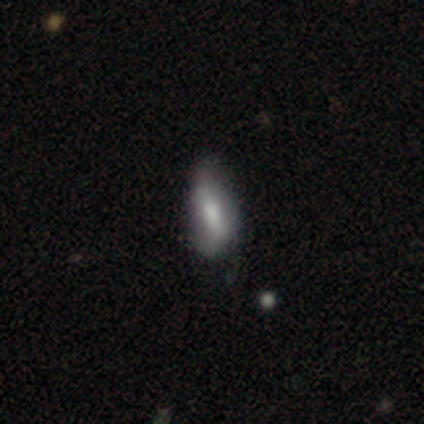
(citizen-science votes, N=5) Smooth or featured: smooth — 60% (featured or disk — 20%)
How rounded: in between — 100%
Merging: none — 50% (minor disturbance — 25%)